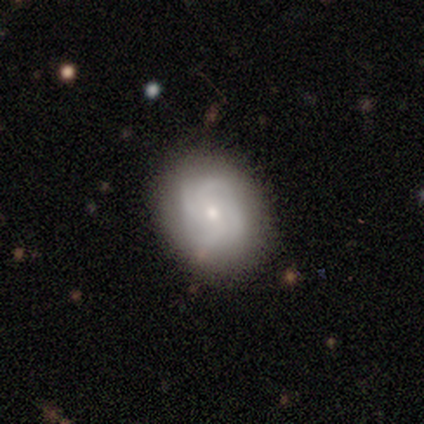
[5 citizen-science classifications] This appears to be a smooth galaxy with no disk features (60%) that is in between round and cigar-shaped (100%). Merging: none (60%).